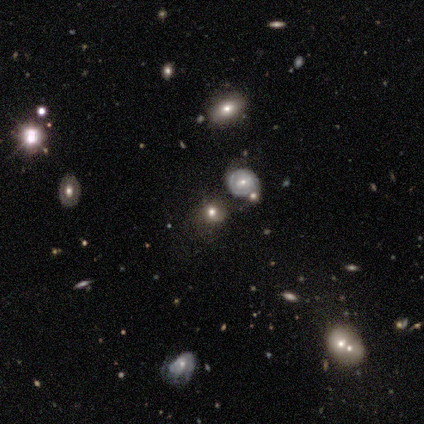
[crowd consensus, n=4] Smooth or featured? featured or disk (50%)
Edge-on disk? no (100%)
Bar? no (100%)
Spiral arms? no (100%)
Bulge size? dominant (50%, tied with moderate)
Merging? none (100%)